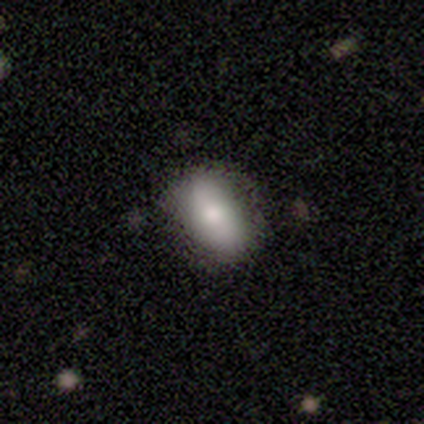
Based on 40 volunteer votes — Morphology: type=smooth (72%); roundness=in between (100%); merging=none (82%).